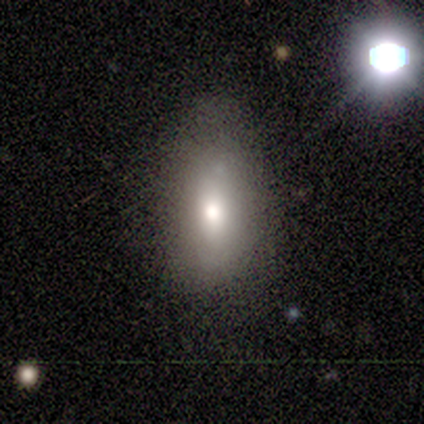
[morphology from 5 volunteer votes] Smooth or featured? smooth (40%, tied with star or artifact)
How rounded? in between (100%)
Merging? none (100%)